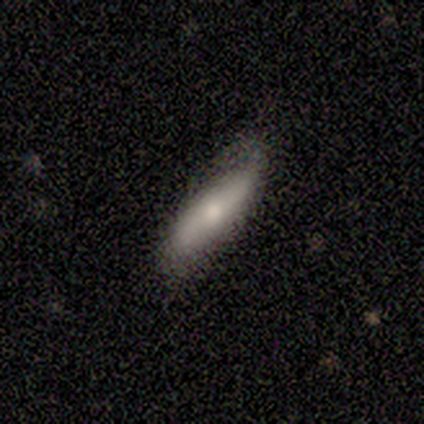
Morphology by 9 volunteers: Smooth or featured? 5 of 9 (56%) said smooth. How rounded? 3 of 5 (60%) said cigar-shaped. Merging? 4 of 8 (50%, tied with minor disturbance) said none.